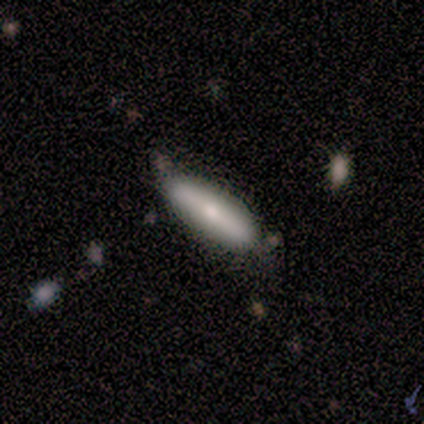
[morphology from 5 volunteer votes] A smooth galaxy with no disk features (80%) that is in between round and cigar-shaped (75%).

Vote fractions:
- Smooth or featured? smooth: 80% / featured or disk: 20% / star or artifact: 0%
- How rounded? in between: 75% / cigar-shaped: 25% / round: 0%
- Merging? none: 60% / minor disturbance: 40% / major disturbance: 0% / merger: 0%